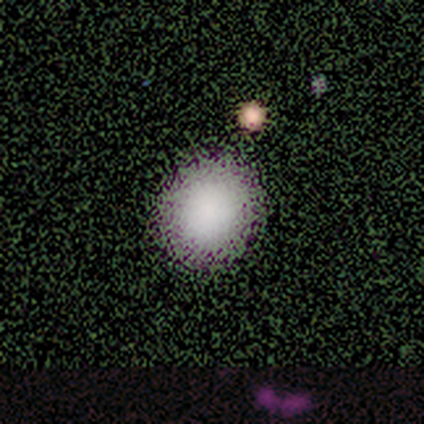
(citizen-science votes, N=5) Smooth or featured?
  - smooth: 100% *
  - featured or disk: 0%
  - star or artifact: 0%
How rounded?
  - round: 80% *
  - in between: 20%
  - cigar-shaped: 0%
Merging?
  - none: 100% *
  - minor disturbance: 0%
  - major disturbance: 0%
  - merger: 0%